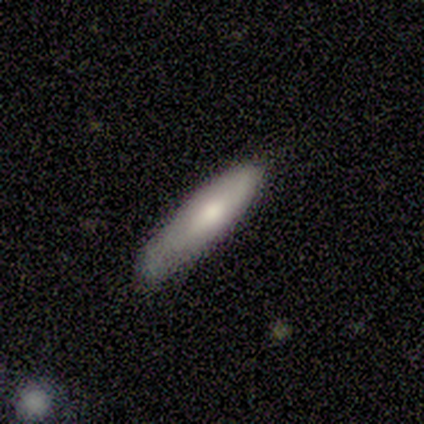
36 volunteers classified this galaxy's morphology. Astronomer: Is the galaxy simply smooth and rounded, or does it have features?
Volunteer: smooth — 64%.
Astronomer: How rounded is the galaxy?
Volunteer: cigar-shaped — 83%.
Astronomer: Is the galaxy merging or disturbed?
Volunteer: none — 65%.